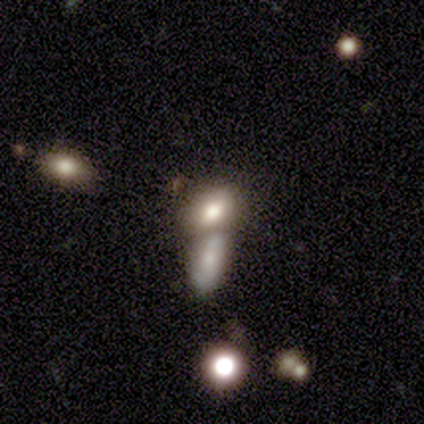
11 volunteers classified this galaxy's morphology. Smooth or featured? 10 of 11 (91%) said smooth. How rounded? 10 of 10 (100%) said in between. Merging? 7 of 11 (64%) said merger.